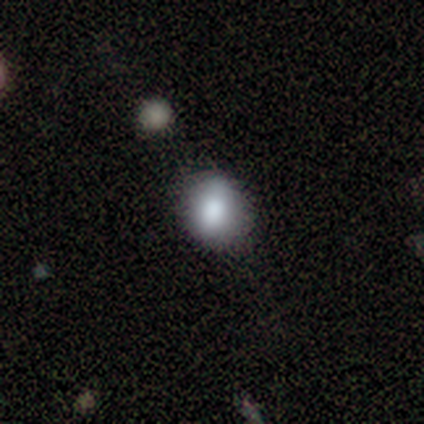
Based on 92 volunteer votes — This appears to be a smooth galaxy with no disk features (75%) that is round (57%). Merging: none (71%).